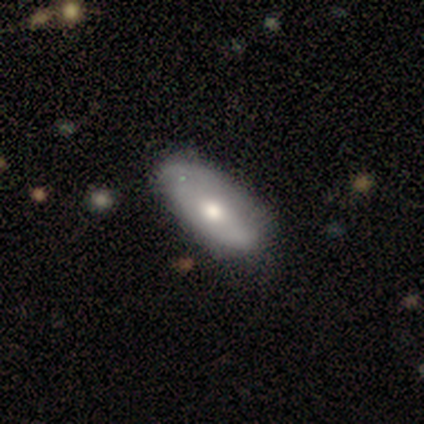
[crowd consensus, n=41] Overall: featured or disk (59%; smooth 41%). Edge-on disk: no (79%). Bar: no (74%). Spiral arms: no (68%; yes 32%). Bulge size: moderate (74%). Merging: none (34%; minor disturbance 24%).